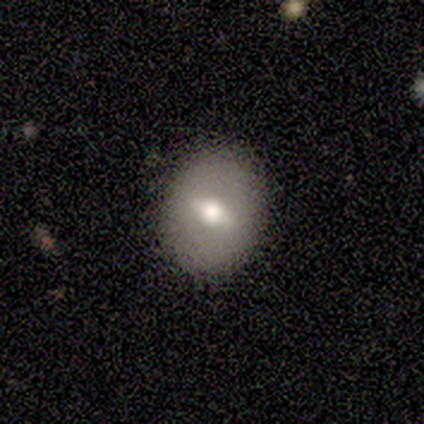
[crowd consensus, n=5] Smooth or featured? 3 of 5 (60%) said featured or disk. Edge-on disk? 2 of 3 (67%) said no. Bar? 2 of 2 (100%) said weak. Spiral arms? 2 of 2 (100%) said no. Bulge size? 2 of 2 (100%) said moderate. Merging? 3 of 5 (60%) said none.